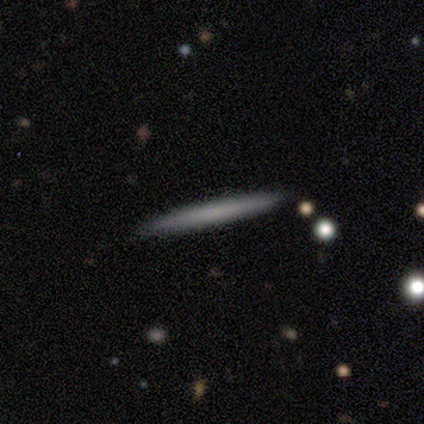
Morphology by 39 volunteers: smooth-or-featured: smooth: 56% | featured or disk: 38% | star or artifact: 5%
  how-rounded: cigar-shaped: 100% | round: 0% | in between: 0%
  merging: none: 92% | minor disturbance: 8% | major disturbance: 0% | merger: 0%